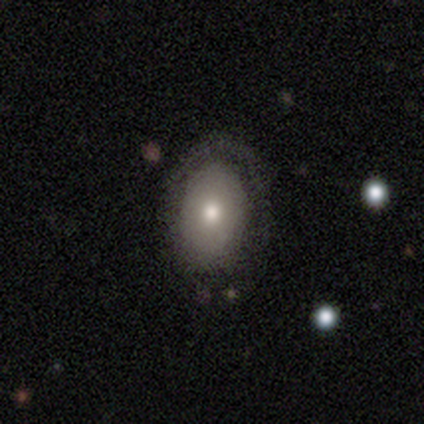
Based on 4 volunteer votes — This is likely a smooth galaxy (75%). How rounded: likely in between (67%). Merging: clearly none (100%).